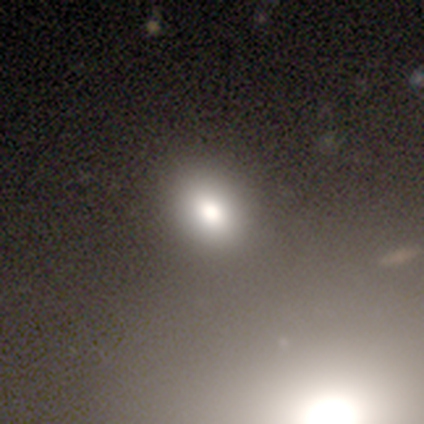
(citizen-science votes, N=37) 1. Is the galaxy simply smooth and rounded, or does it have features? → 59% smooth, 24% featured or disk, 16% star or artifact.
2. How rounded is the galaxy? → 64% in between, 36% round, 0% cigar-shaped.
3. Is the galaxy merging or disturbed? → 71% none, 16% merger, 13% minor disturbance, 0% major disturbance.